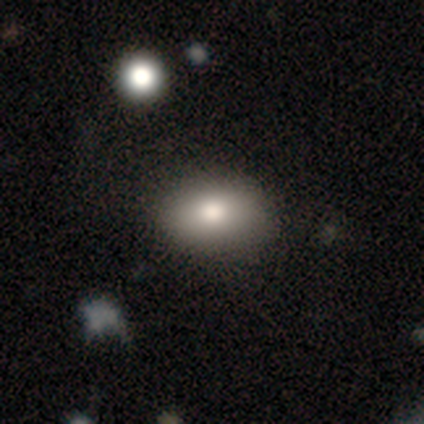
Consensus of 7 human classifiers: Q: Smooth or featured?
A: smooth (86%); runner-up: featured or disk (14%)
Q: How rounded?
A: in between (100%)
Q: Merging?
A: none (86%); runner-up: major disturbance (14%)